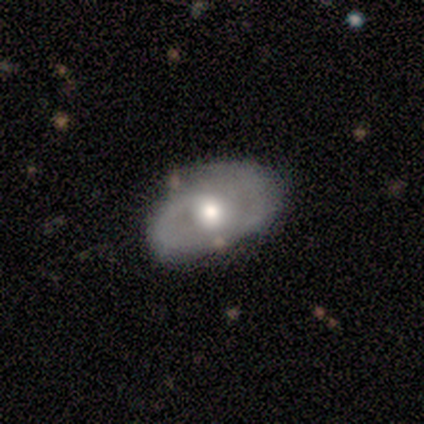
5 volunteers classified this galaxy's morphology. smooth_or_featured: smooth (p=0.60) [alt: featured or disk p=0.40]
how_rounded: in between (p=1.00)
merging: none (p=1.00)